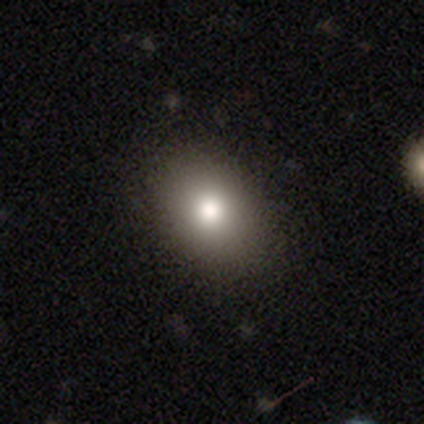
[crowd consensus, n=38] Smooth or featured? smooth (89%)
How rounded? in between (76%)
Merging? none (57%)